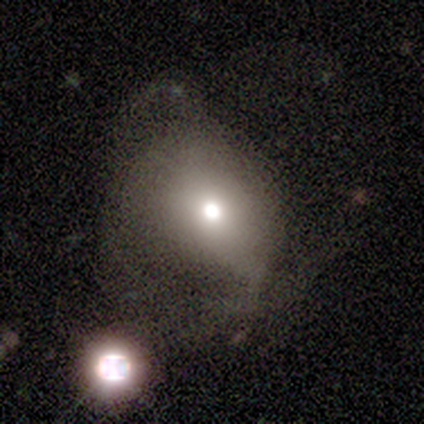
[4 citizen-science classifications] This appears to be a smooth galaxy with no disk features (75%) that is round (67%). Merging: major disturbance (67%).